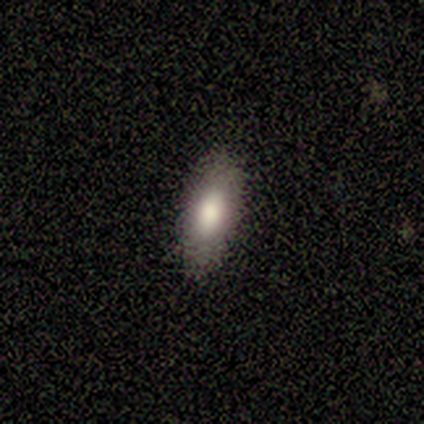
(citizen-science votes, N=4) Volunteers were most divided on "smooth or featured": smooth: 75%, featured or disk: 25%, star or artifact: 0%. More confident: how rounded — in between (100%); merging — none (75%).